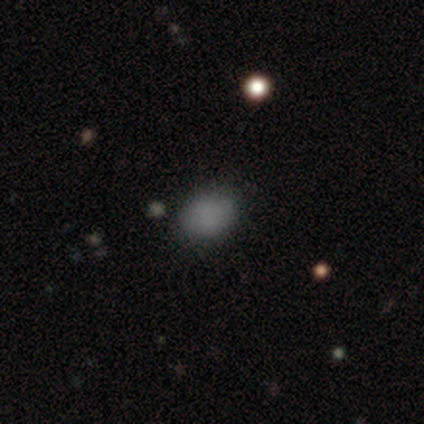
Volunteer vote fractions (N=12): Morphology: type=smooth (92%); roundness=in between (73%); merging=none (92%).